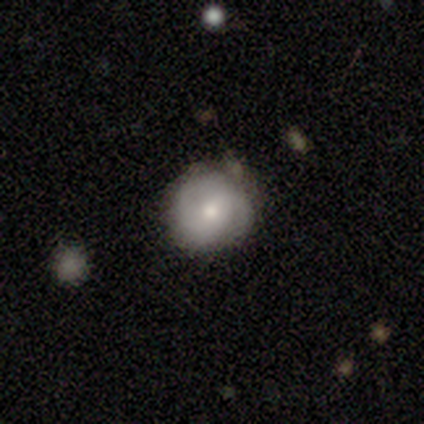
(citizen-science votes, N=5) Q: Smooth or featured?
A: featured or disk (60%); runner-up: smooth (40%)
Q: Edge-on disk?
A: no (67%); runner-up: yes (33%)
Q: Bar?
A: no (100%)
Q: Spiral arms?
A: yes (50%); tied with: no (50%)
Q: Spiral winding?
A: loose (100%)
Q: Spiral arm count?
A: 2 (100%)
Q: Bulge size?
A: large (50%); tied with: small (50%)
Q: Merging?
A: none (80%); runner-up: minor disturbance (20%)